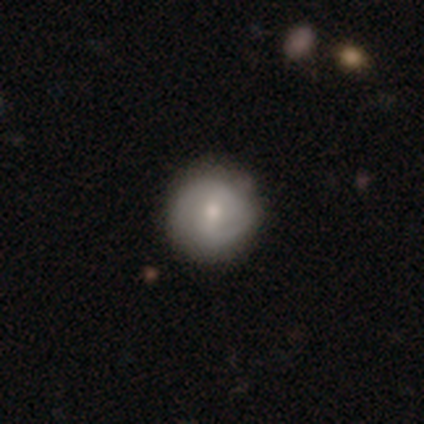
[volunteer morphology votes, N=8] smooth 50% (tied), featured or disk 50% (tied), star or artifact 0%. Down the decision tree: how rounded — round (100%); merging — none (88%).